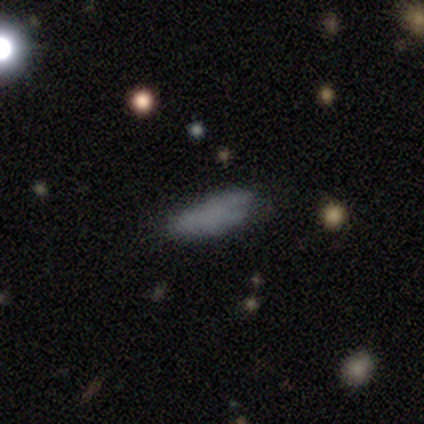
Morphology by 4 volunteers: smooth_or_featured: smooth (p=1.00)
how_rounded: in between (p=0.50) [tied with: cigar-shaped p=0.50]
merging: none (p=1.00)